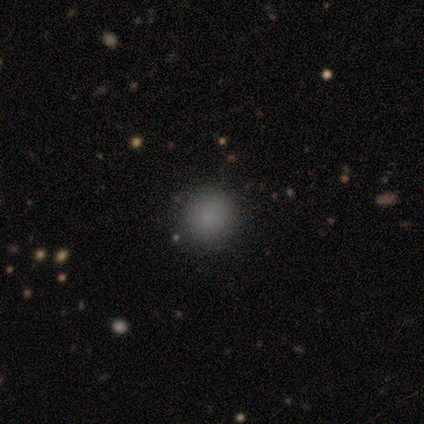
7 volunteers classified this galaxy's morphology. A smooth galaxy with no disk features (71%) that is round (100%). Merging: none (100%).